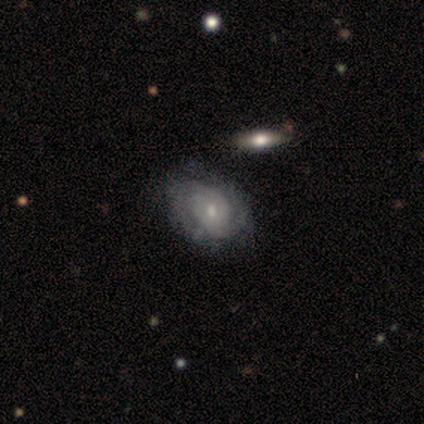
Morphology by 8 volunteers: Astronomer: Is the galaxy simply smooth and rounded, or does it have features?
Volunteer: featured or disk — 75%.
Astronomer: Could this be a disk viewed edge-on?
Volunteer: no — 100%.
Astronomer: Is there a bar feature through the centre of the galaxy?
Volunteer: no — 83%.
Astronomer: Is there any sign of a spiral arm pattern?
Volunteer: yes — 50%, tied with no at 50%.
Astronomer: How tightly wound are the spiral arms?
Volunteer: tight — 67%.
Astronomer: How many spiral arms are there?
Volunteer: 2 — 100%.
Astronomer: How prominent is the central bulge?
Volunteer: small — 83%.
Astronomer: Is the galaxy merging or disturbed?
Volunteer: none — 75%.